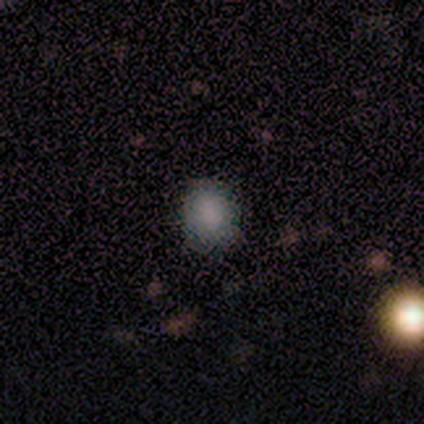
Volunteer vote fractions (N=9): Overall: smooth (89%). How rounded: round (88%). Merging: none (88%).